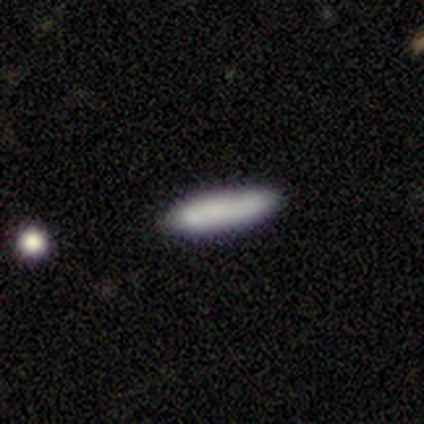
Smooth or featured: smooth — 62% (featured or disk — 28%)
How rounded: cigar-shaped — 72% (in between — 28%)
Merging: none — 81% (minor disturbance — 11%)